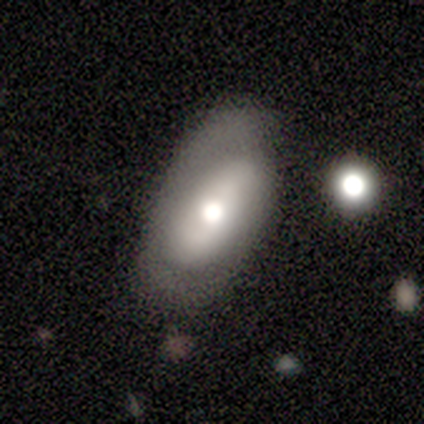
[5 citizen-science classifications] This appears to be a smooth galaxy with no disk features (40%, tied with featured or disk) that is in between round and cigar-shaped (100%). Merging: major disturbance (50%).